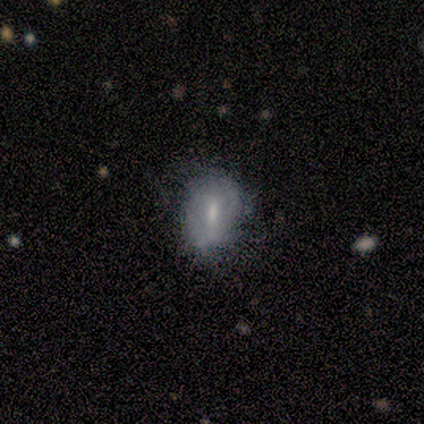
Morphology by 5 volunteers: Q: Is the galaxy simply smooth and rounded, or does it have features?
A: smooth — 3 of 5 (60%).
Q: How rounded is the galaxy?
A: in between — 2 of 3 (67%).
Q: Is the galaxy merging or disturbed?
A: none — 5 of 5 (100%).